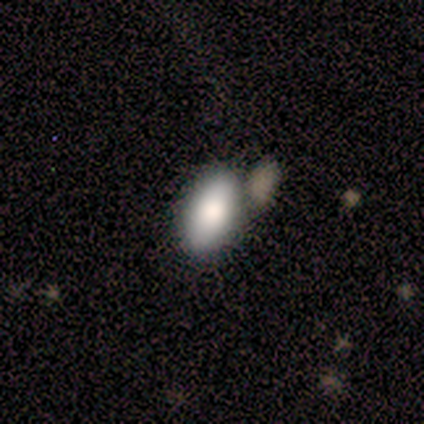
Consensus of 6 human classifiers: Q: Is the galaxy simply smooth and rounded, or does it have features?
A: smooth — 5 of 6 (83%).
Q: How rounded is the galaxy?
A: in between — 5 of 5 (100%).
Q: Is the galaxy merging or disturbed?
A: none — 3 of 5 (60%).